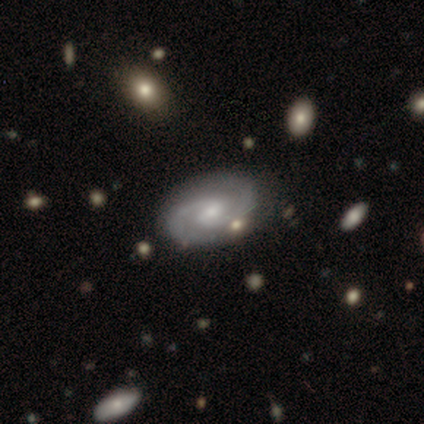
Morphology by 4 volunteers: This appears to be a featured or disk galaxy (100%) with no bar (100%), 2 (100%) tight (33%, tied with medium and loose) spiral arms (75%) and a small central bulge (100%). Merging: none (75%).